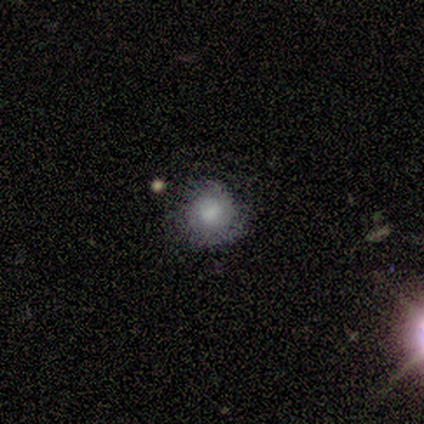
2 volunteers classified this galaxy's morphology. Consensus on every question: smooth or featured — smooth (100%); how rounded — round (100%); merging — none (100%).